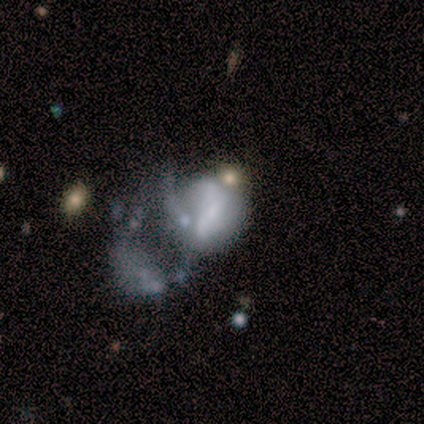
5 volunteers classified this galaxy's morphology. Smooth or featured?
  - featured or disk: 60% *
  - smooth: 20%
  - star or artifact: 20%
Edge-on disk?
  - no: 100% *
  - yes: 0%
Bar?
  - strong: 33% * (tied)
  - weak: 33% * (tied)
  - no: 33% * (tied)
Spiral arms?
  - no: 67% *
  - yes: 33%
Bulge size?
  - moderate: 67% *
  - small: 33%
  - dominant: 0%
  - large: 0%
  - none: 0%
Merging?
  - major disturbance: 75% *
  - merger: 25%
  - none: 0%
  - minor disturbance: 0%